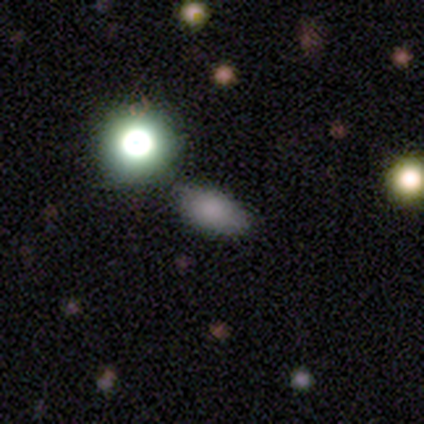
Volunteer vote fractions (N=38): Volunteers were most divided on "smooth or featured": smooth: 74%, featured or disk: 16%, star or artifact: 11%. More confident: merging — none (88%); how rounded — in between (86%).